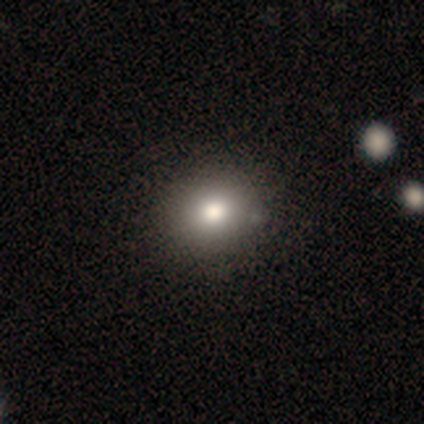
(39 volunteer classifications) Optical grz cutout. It shows a smooth galaxy with no disk features (85%) that is round (79%). Merging: none (57%).